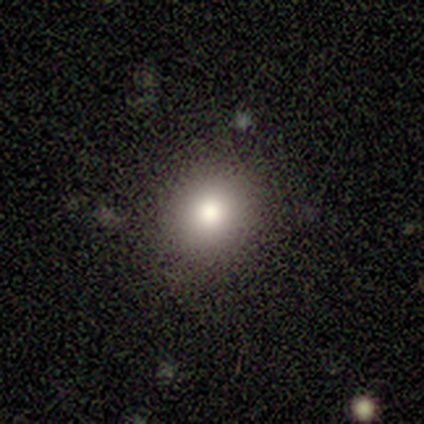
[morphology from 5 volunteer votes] Smooth or featured? 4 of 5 (80%) said smooth. How rounded? 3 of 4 (75%) said round. Merging? 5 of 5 (100%) said none.